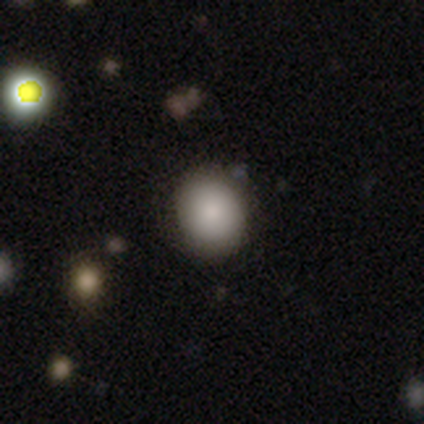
Smooth or featured? 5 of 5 (100%) said smooth. How rounded? 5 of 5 (100%) said round. Merging? 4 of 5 (80%) said none.